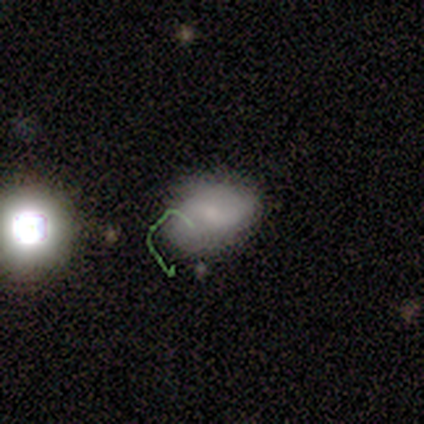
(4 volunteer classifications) This appears to be a smooth galaxy with no disk features (75%) that is in between round and cigar-shaped (67%). Merging: none (50%).